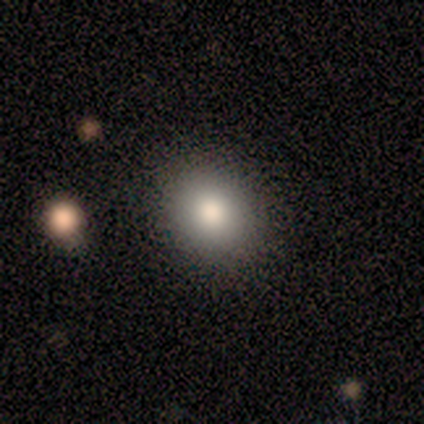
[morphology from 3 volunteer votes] Volunteers were most divided on "how rounded": in between: 67%, round: 33%, cigar-shaped: 0%. More confident: smooth or featured — smooth (100%); merging — none (67%).